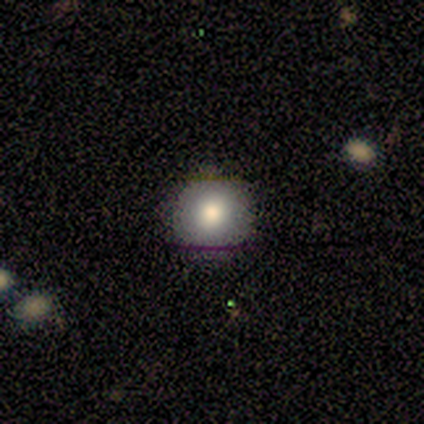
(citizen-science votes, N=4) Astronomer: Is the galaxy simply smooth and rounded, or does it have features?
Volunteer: smooth — 100%.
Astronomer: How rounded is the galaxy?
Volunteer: round — 100%.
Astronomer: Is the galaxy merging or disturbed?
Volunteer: none — 100%.